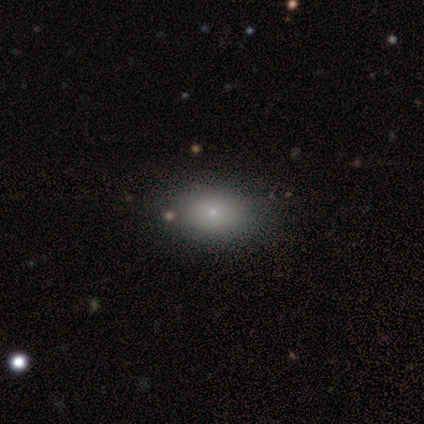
smooth-or-featured: smooth: 79% | featured or disk: 15% | star or artifact: 5%
  how-rounded: in between: 81% | round: 19% | cigar-shaped: 0%
  merging: none: 57% | minor disturbance: 16% | major disturbance: 3% | merger: 3%